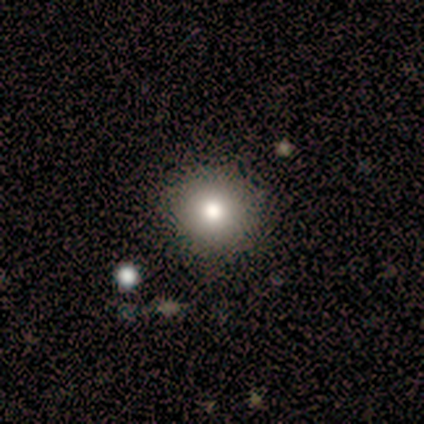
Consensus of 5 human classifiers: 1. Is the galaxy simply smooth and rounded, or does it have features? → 80% smooth, 20% star or artifact, 0% featured or disk.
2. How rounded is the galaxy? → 75% round, 25% in between, 0% cigar-shaped.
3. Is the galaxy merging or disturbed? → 100% none, 0% minor disturbance, 0% major disturbance, 0% merger.